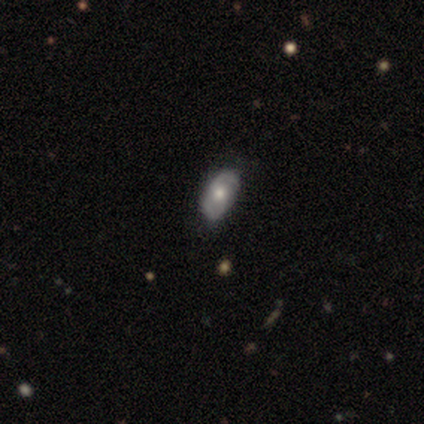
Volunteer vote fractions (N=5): Q: Smooth or featured?
A: smooth (60%); runner-up: featured or disk (40%)
Q: How rounded?
A: in between (100%)
Q: Merging?
A: minor disturbance (60%); runner-up: none (40%)